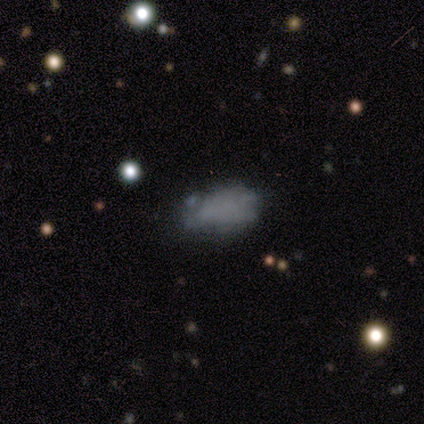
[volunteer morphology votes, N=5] Q: Smooth or featured?
A: smooth (60%); runner-up: featured or disk (20%)
Q: How rounded?
A: in between (67%); runner-up: cigar-shaped (33%)
Q: Merging?
A: none (75%); runner-up: major disturbance (25%)